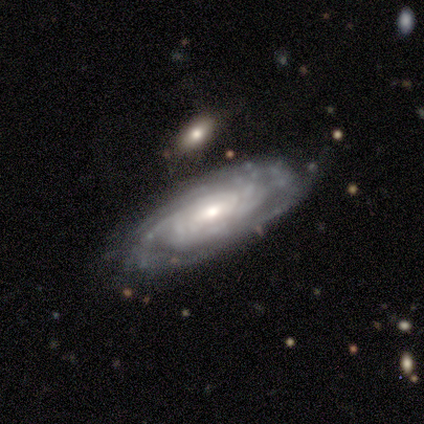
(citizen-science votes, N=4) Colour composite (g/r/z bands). It shows a featured or disk galaxy (100%) with no bar (67%), tight (67%) spiral arms (100%) and a moderate central bulge (67%). Merging: none (100%).